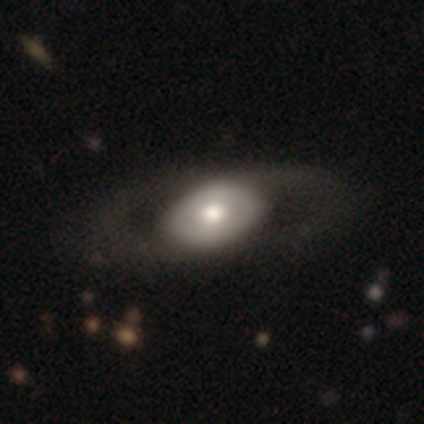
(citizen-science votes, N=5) Morphology: type=featured or disk (80%); edge-on=yes (50%, tied with no); edge-on bulge=rounded (100%); merging=none (60%).